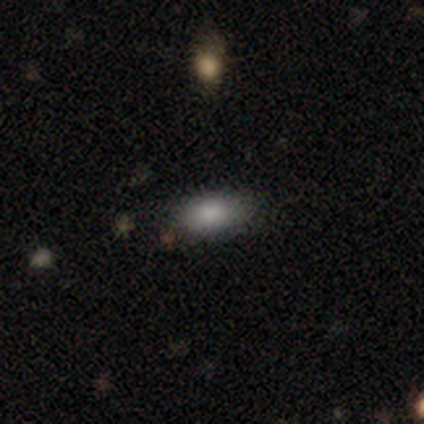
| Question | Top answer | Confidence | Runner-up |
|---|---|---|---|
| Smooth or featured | smooth | 80% | featured or disk (10%) |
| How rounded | in between | 88% | round (12%) |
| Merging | none | 100% | — |